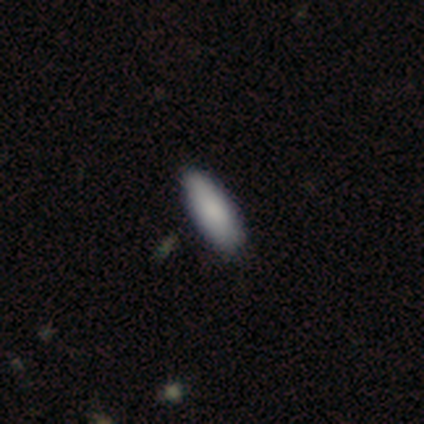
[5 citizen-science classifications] Smooth or featured?
  - smooth: 100% *
  - featured or disk: 0%
  - star or artifact: 0%
How rounded?
  - in between: 100% *
  - round: 0%
  - cigar-shaped: 0%
Merging?
  - none: 60% *
  - minor disturbance: 20%
  - major disturbance: 20%
  - merger: 0%